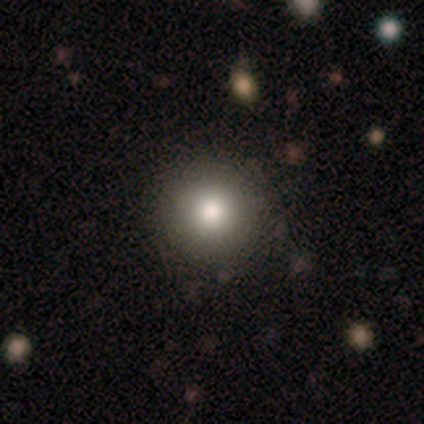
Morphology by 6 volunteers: Smooth or featured? smooth (100%)
How rounded? round (100%)
Merging? none (83%)